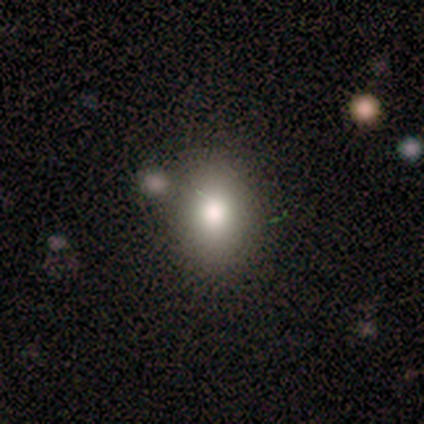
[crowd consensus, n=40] This appears to be a smooth galaxy with no disk features (82%) that is in between round and cigar-shaped (73%). Merging: none (72%).